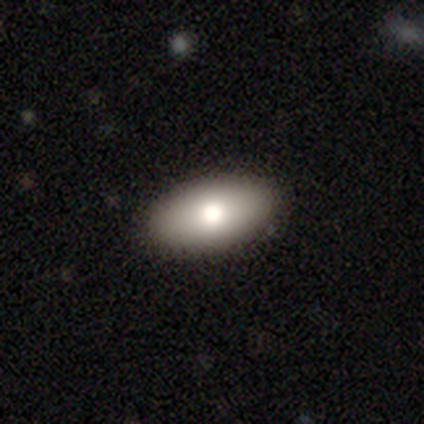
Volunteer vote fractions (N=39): Smooth or featured? 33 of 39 (85%) said smooth. How rounded? 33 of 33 (100%) said in between. Merging? 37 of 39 (95%) said none.